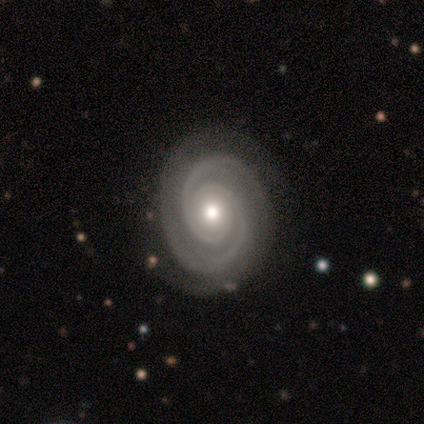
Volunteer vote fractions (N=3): Q: Smooth or featured?
A: featured or disk (100%)
Q: Edge-on disk?
A: no (100%)
Q: Bar?
A: no (100%)
Q: Spiral arms?
A: yes (100%)
Q: Spiral winding?
A: tight (100%)
Q: Spiral arm count?
A: 2 (100%)
Q: Bulge size?
A: moderate (100%)
Q: Merging?
A: none (67%); runner-up: minor disturbance (33%)